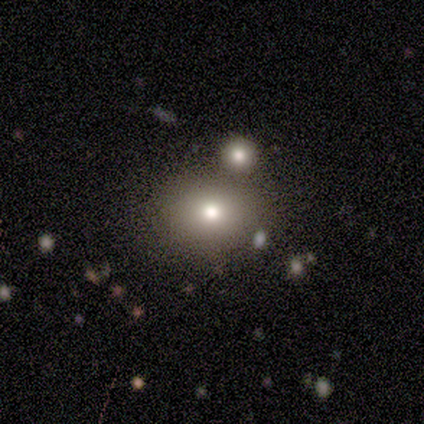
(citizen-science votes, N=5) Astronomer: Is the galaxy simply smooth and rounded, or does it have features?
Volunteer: featured or disk — 60% (runner-up: smooth, 40%).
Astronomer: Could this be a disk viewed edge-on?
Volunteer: no — 100%.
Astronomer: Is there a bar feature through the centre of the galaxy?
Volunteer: no — 67%.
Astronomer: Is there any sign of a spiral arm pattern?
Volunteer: no — 100%.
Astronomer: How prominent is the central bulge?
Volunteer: moderate — 67%.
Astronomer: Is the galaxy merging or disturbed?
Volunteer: none — 60% (runner-up: merger, 40%).